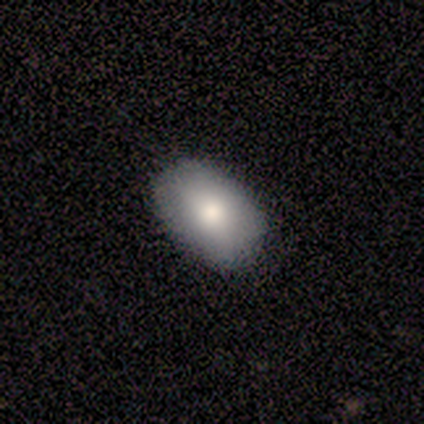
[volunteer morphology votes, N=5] This appears to be a smooth galaxy with no disk features (100%) that is in between round and cigar-shaped (100%). Merging: none (100%).